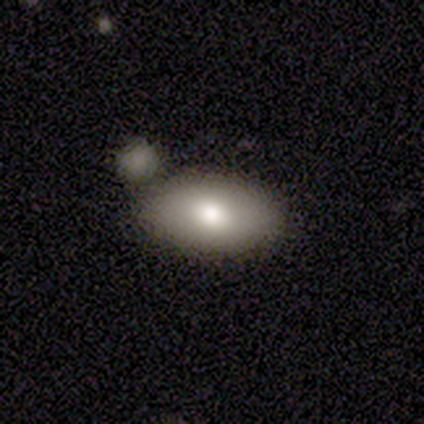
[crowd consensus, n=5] smooth-or-featured: smooth: 80% | featured or disk: 20% | star or artifact: 0%
  how-rounded: in between: 100% | round: 0% | cigar-shaped: 0%
  merging: none: 100% | minor disturbance: 0% | major disturbance: 0% | merger: 0%